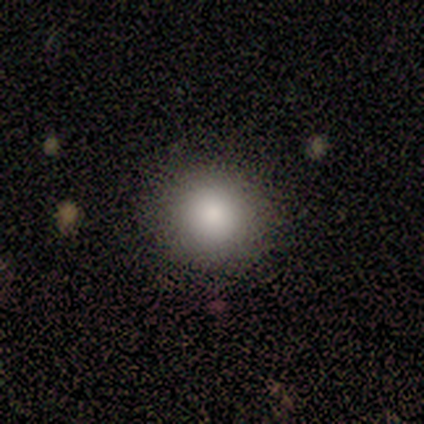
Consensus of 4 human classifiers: Smooth or featured?
  - smooth: 100% *
  - featured or disk: 0%
  - star or artifact: 0%
How rounded?
  - round: 100% *
  - in between: 0%
  - cigar-shaped: 0%
Merging?
  - none: 100% *
  - minor disturbance: 0%
  - major disturbance: 0%
  - merger: 0%